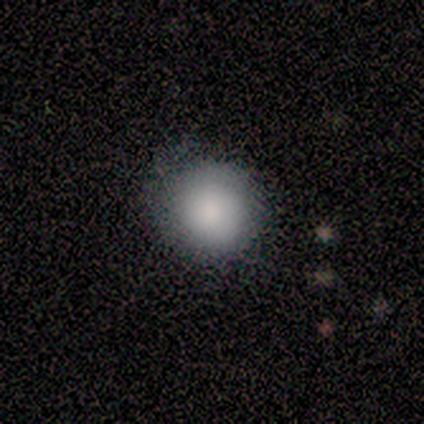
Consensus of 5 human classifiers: Overall: smooth (60%; featured or disk 20%). How rounded: round (100%). Merging: none (75%).